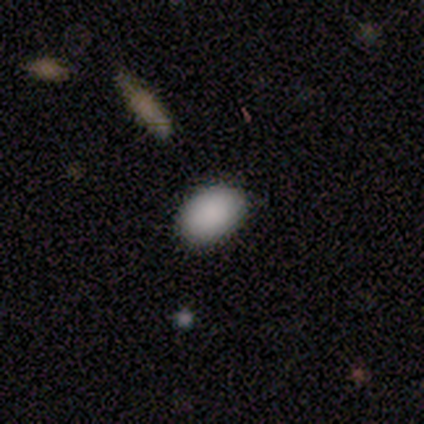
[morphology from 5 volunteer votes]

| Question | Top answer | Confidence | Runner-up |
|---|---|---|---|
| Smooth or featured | smooth | 100% | — |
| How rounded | in between | 80% | round (20%) |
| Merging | none | 40% | tied: minor disturbance (40%) |